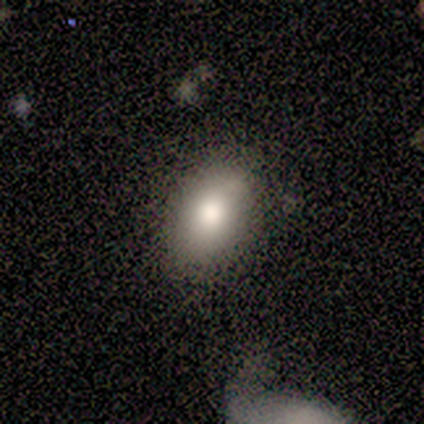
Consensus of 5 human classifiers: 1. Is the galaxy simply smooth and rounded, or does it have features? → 60% smooth, 20% featured or disk, 20% star or artifact.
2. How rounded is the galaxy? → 100% in between, 0% round, 0% cigar-shaped.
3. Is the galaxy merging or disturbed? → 100% none, 0% minor disturbance, 0% major disturbance, 0% merger.